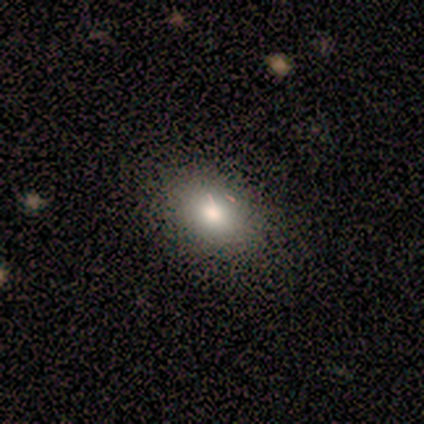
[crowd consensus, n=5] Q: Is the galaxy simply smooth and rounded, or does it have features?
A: smooth — 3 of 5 (60%).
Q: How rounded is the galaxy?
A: in between — 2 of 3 (67%).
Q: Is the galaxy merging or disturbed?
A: none — 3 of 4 (75%).